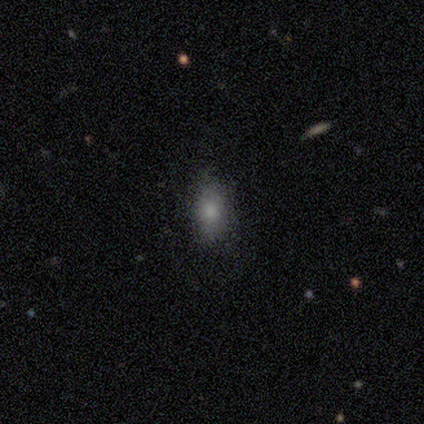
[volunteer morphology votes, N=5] This appears to be a star or artifact, not a galaxy (60%).